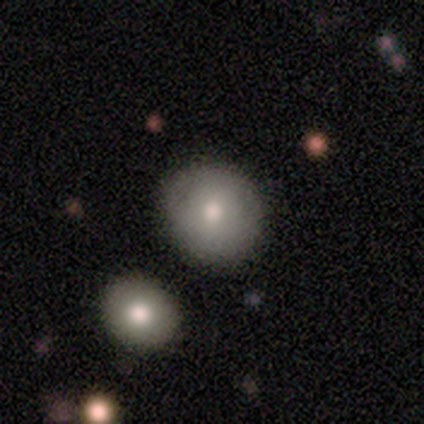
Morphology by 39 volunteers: Smooth or featured? smooth (59%)
How rounded? round (78%)
Merging? none (94%)